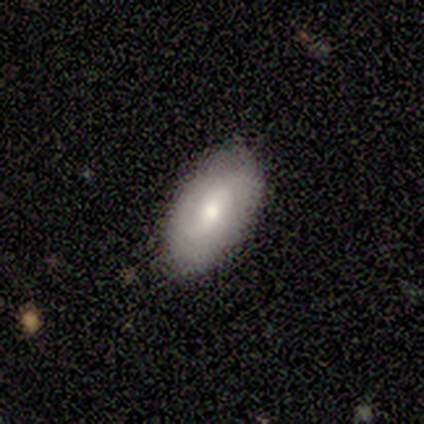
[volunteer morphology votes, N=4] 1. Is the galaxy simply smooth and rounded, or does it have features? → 75% featured or disk, 25% smooth, 0% star or artifact.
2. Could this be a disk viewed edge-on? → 100% no, 0% yes.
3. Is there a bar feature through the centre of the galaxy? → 33% strong (tied), 33% weak (tied), 33% no (tied).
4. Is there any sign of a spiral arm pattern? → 67% yes, 33% no.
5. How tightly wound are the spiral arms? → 100% medium, 0% tight, 0% loose.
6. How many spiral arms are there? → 100% 2, 0% 1, 0% 3, 0% 4, 0% more than 4, 0% can't tell.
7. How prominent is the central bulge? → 67% moderate, 33% small, 0% dominant, 0% large, 0% none.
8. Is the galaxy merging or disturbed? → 75% none, 25% minor disturbance, 0% major disturbance, 0% merger.